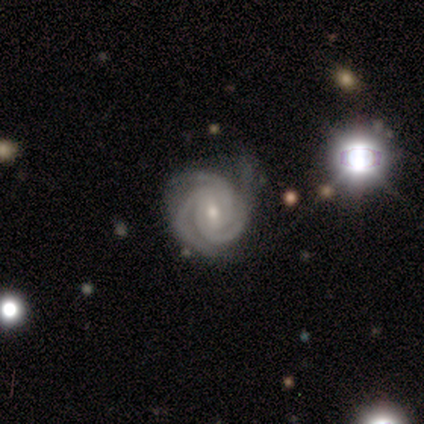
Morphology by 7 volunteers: Overall: featured or disk (86%). Edge-on disk: no (83%). Bar: weak (40%, tied with no). Spiral arms: yes (100%). Spiral arm count: 3 (80%). Spiral winding: tight (60%; medium 20%). Bulge size: moderate (60%; small 40%). Merging: none (33%, tied with major disturbance).